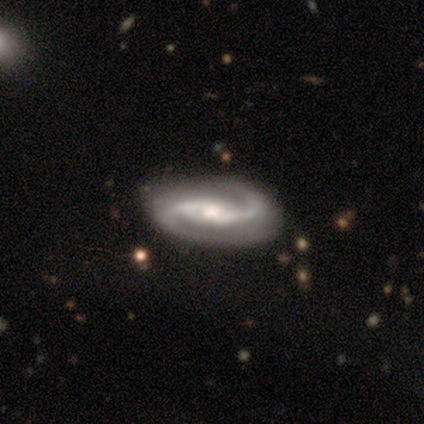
A featured or disk galaxy (100%) with a strong bar (40%, tied with weak), 2 (100%) loose (50%) spiral arms (100%) and a moderate central bulge (90%). Merging: none (73%).